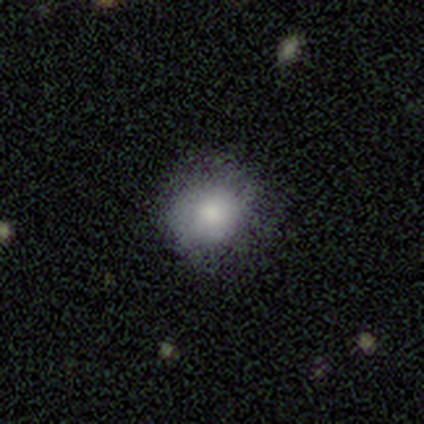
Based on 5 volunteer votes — Smooth or featured: smooth — 100%
How rounded: round — 80% (in between — 20%)
Merging: minor disturbance — 60% (none — 40%)